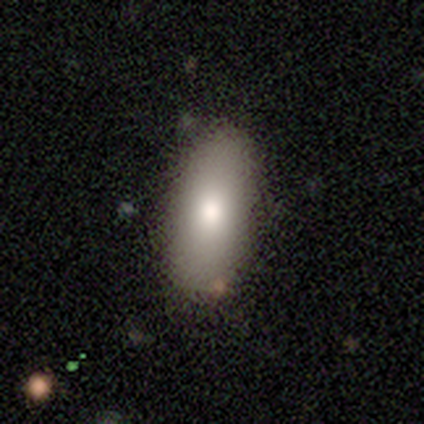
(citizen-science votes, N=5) Q: Smooth or featured?
A: smooth (100%)
Q: How rounded?
A: in between (100%)
Q: Merging?
A: none (80%); runner-up: minor disturbance (20%)